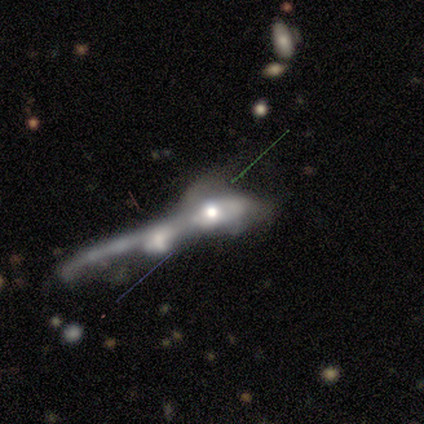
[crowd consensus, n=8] smooth-or-featured: featured or disk: 88% | smooth: 12% | star or artifact: 0%
  disk-edge-on: no: 86% | yes: 14%
    bar: no: 83% | weak: 17% | strong: 0%
    has-spiral-arms: no: 100% | yes: 0%
    bulge-size: moderate: 50% | large: 33% | small: 17% | dominant: 0% | none: 0%
  merging: merger: 88% | major disturbance: 12% | none: 0% | minor disturbance: 0%